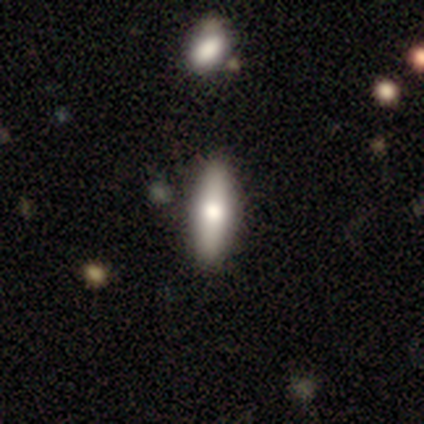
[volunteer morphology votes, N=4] Q: Smooth or featured?
A: smooth (100%)
Q: How rounded?
A: cigar-shaped (75%); runner-up: in between (25%)
Q: Merging?
A: none (100%)